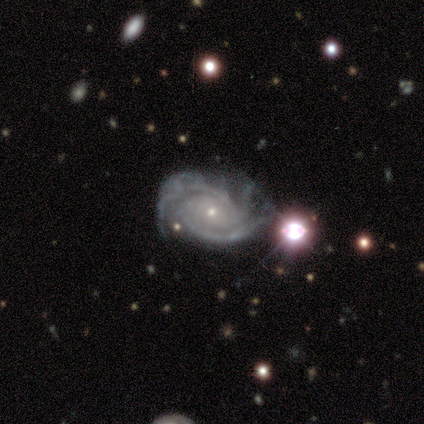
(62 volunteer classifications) Overall: featured or disk (94%). Edge-on disk: no (100%). Bar: no (79%). Spiral arms: yes (100%). Spiral arm count: 2 (29%, tied with 3). Spiral winding: tight (62%; medium 31%). Bulge size: small (90%). Merging: minor disturbance (34%; none 29%).